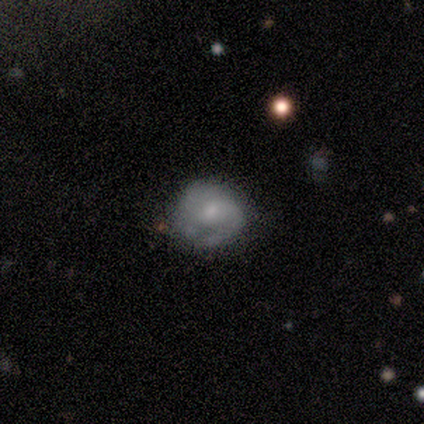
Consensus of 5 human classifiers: This appears to be a smooth galaxy with no disk features (60%) that is round (100%). Merging: none (80%).